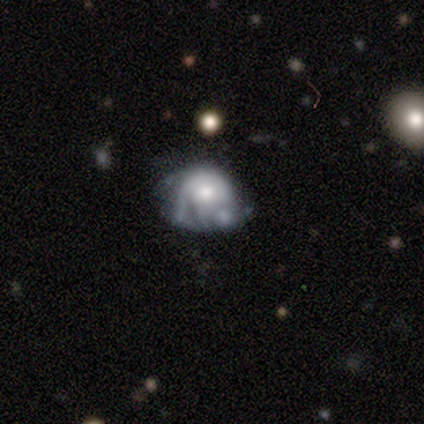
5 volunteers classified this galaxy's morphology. Q: Smooth or featured?
A: featured or disk (60%); runner-up: smooth (20%)
Q: Edge-on disk?
A: no (100%)
Q: Bar?
A: no (100%)
Q: Spiral arms?
A: no (67%); runner-up: yes (33%)
Q: Bulge size?
A: moderate (33%); tied with: small (33%); none (33%)
Q: Merging?
A: none (25%); tied with: minor disturbance (25%); major disturbance (25%); merger (25%)